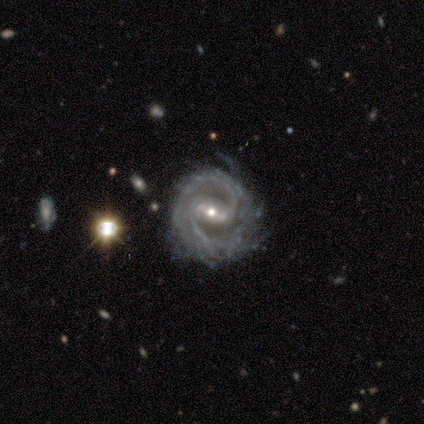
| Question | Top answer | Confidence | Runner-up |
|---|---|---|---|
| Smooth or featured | featured or disk | 100% | — |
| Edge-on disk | no | 100% | — |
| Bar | strong | 40% | tied: weak (40%) |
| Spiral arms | yes | 100% | — |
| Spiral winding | medium | 40% | tied: loose (40%) |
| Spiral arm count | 2 | 80% | more than 4 (20%) |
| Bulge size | moderate | 80% | small (20%) |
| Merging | none | 100% | — |